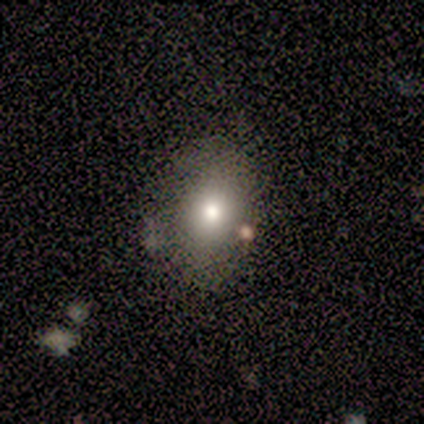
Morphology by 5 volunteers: smooth_or_featured: smooth (p=0.40) [tied with: featured or disk p=0.40]
how_rounded: round (p=1.00)
merging: none (p=0.75) [alt: minor disturbance p=0.25]